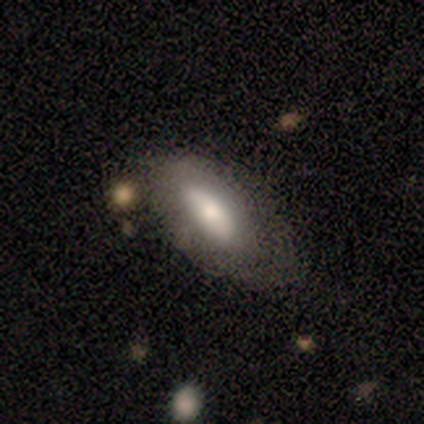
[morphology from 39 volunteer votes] This appears to be a smooth galaxy with no disk features (56%) that is in between round and cigar-shaped (73%). Merging: none (34%).